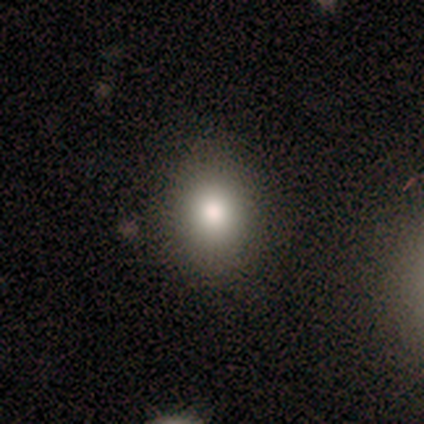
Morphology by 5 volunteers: This appears to be a smooth galaxy with no disk features (80%) that is round (75%). Merging: none (75%).